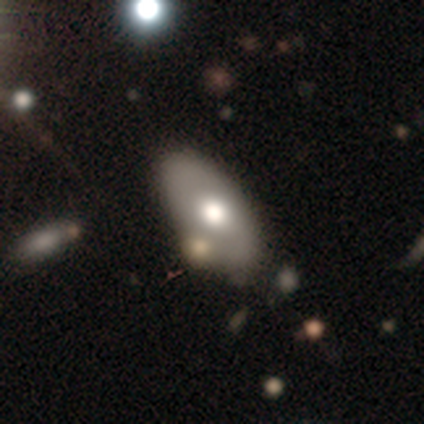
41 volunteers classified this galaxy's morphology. smooth 59%, featured or disk 37%, star or artifact 5%. Down the decision tree: how rounded — in between (92%); merging — none (36%).